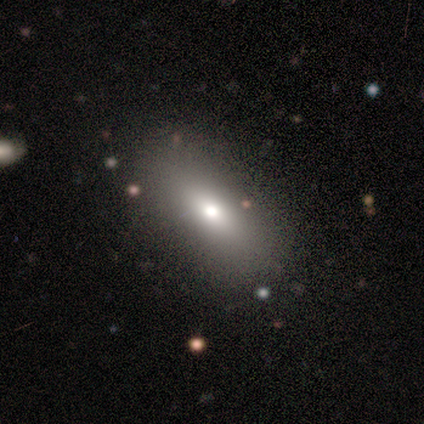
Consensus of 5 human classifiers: This is marginally a smooth galaxy (40%, tied with featured or disk). How rounded: clearly in between (100%). Merging: clearly none (100%).